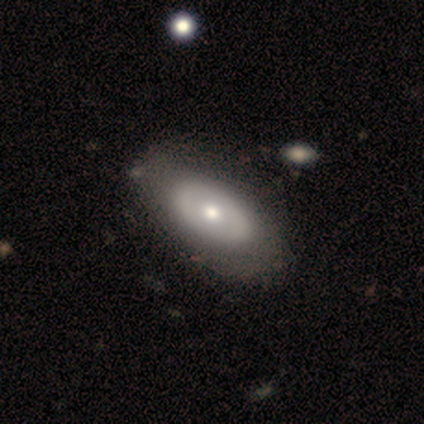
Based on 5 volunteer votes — Smooth or featured? 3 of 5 (60%) said smooth. How rounded? 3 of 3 (100%) said in between. Merging? 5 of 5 (100%) said none.